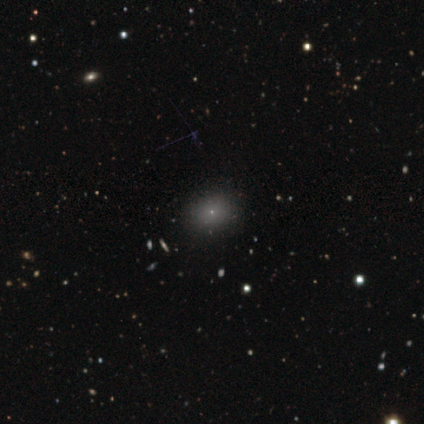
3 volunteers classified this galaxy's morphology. Smooth or featured? smooth (100%)
How rounded? round (67%)
Merging? none (67%)